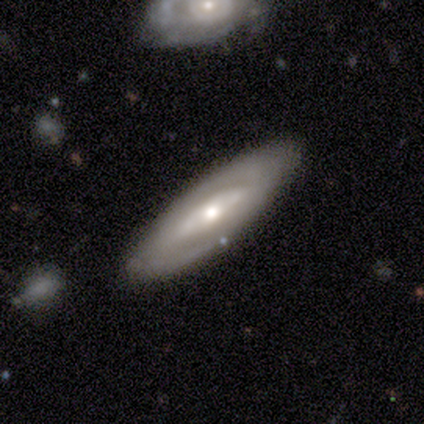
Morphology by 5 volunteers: Overall: featured or disk (60%; smooth 40%). Edge-on disk: no (100%). Bar: strong (67%; no 33%). Spiral arms: yes (67%; no 33%). Spiral arm count: 2 (100%). Spiral winding: medium (100%). Bulge size: moderate (100%). Merging: none (100%).